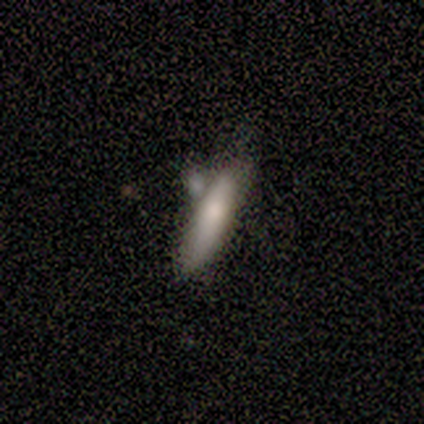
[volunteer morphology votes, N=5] A smooth galaxy with no disk features (60%) that is cigar-shaped (100%). Merging: none (50%).